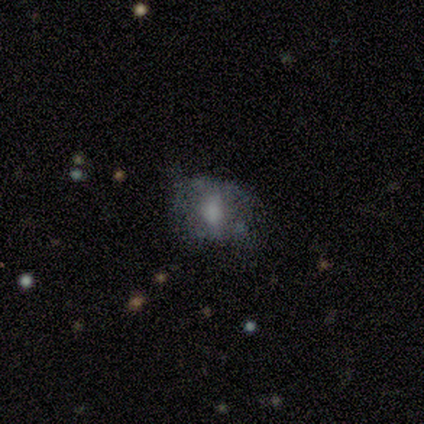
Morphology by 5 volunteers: Volunteers were most divided on "how rounded": round: 60%, in between: 40%, cigar-shaped: 0%. More confident: smooth or featured — smooth (100%); merging — none (60%).